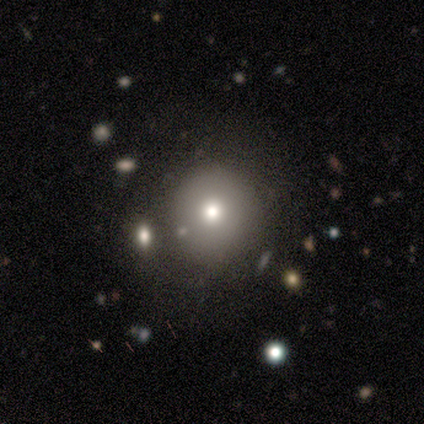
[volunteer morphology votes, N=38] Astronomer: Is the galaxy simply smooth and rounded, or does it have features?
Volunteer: smooth — 71%.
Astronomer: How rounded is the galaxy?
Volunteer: round — 93%.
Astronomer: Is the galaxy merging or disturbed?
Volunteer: none — 77%.